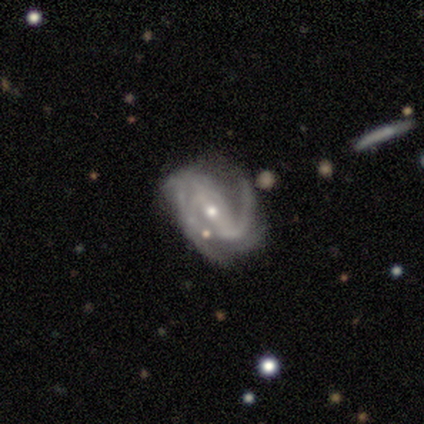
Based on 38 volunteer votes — A featured or disk galaxy (97%) with a weak bar (53%), 2 (61%) medium (58%) spiral arms (97%) and a small central bulge (56%).

Vote fractions:
- Smooth or featured? featured or disk: 97% / star or artifact: 3% / smooth: 0%
- Edge-on disk? no: 92% / yes: 8%
- Bar? weak: 53% / strong: 29% / no: 18%
- Spiral arms? yes: 97% / no: 3%
- Spiral winding? medium: 58% / loose: 30% / tight: 12%
- Spiral arm count? 2: 61% / 1: 15% / 3: 15% / can't tell: 6% / more than 4: 3% / 4: 0%
- Bulge size? small: 56% / moderate: 41% / large: 3% / dominant: 0% / none: 0%
- Merging? none: 51% / minor disturbance: 27% / major disturbance: 22% / merger: 0%